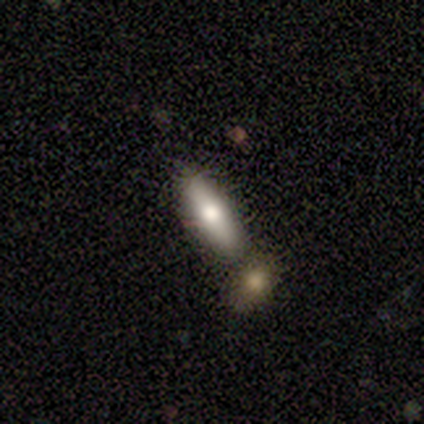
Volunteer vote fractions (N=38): smooth-or-featured: smooth: 76% | featured or disk: 24% | star or artifact: 0%
  how-rounded: cigar-shaped: 66% | in between: 34% | round: 0%
  merging: none: 47% | merger: 32% | minor disturbance: 18% | major disturbance: 3%